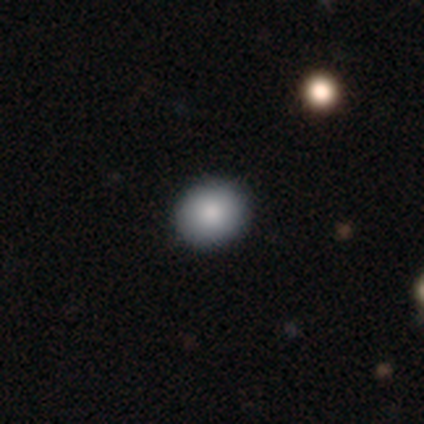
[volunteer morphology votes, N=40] smooth-or-featured: smooth: 82% | featured or disk: 10% | star or artifact: 8%
  how-rounded: round: 76% | in between: 24% | cigar-shaped: 0%
  merging: none: 92% | minor disturbance: 5% | merger: 3% | major disturbance: 0%